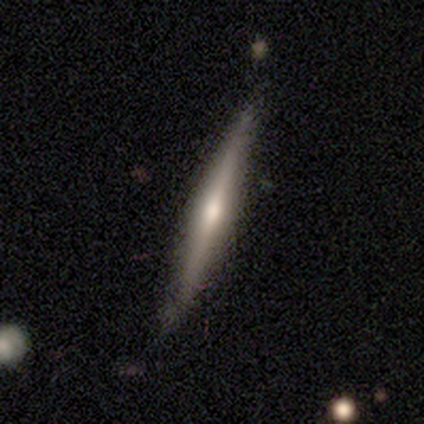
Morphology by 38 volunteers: Smooth or featured? 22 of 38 (58%) said featured or disk. Edge-on disk? 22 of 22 (100%) said yes. Edge-on bulge? 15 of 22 (68%) said rounded. Merging? 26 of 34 (76%) said none.